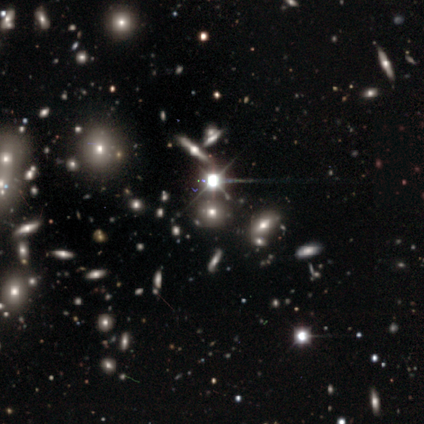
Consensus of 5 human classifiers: This is clearly a star or artifact rather than a galaxy (80%).